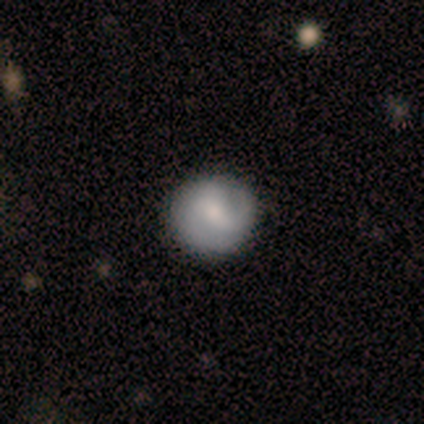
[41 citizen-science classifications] smooth 51%, featured or disk 41%, star or artifact 7%. Down the decision tree: how rounded — round (95%); merging — none (95%).